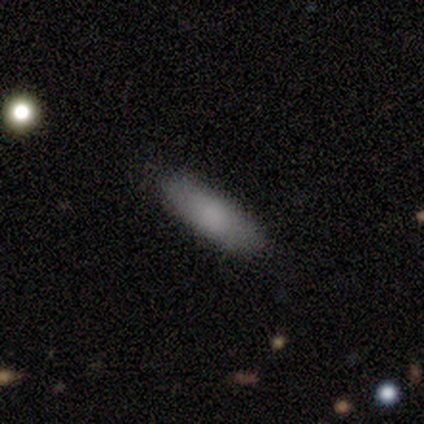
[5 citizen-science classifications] This appears to be a smooth galaxy with no disk features (100%) that is cigar-shaped (60%). Merging: none (100%).